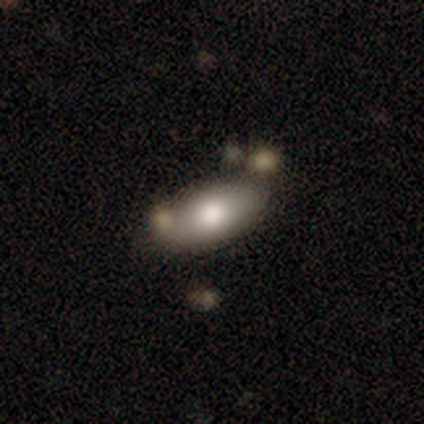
Smooth or featured? smooth (80%)
How rounded? in between (100%)
Merging? none (60%)